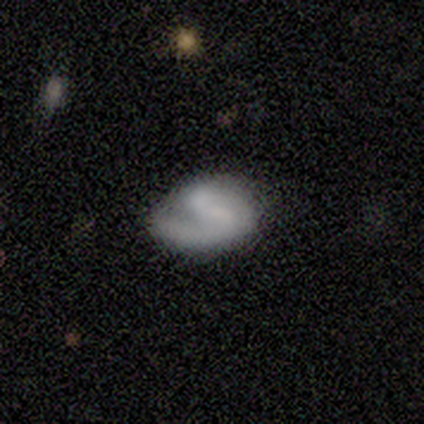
smooth_or_featured: smooth (p=0.50) [tied with: featured or disk p=0.50]
how_rounded: in between (p=1.00)
merging: none (p=0.50) [tied with: minor disturbance p=0.50]